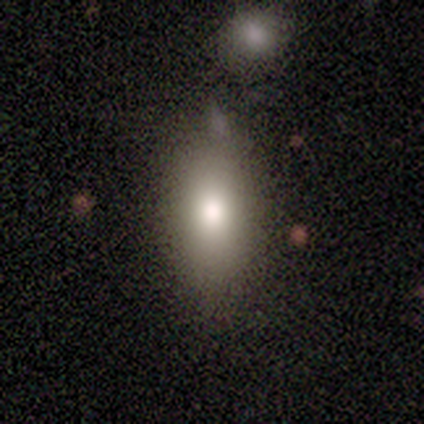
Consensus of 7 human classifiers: Volunteers were most divided on "merging": none: 71%, minor disturbance: 14%, major disturbance: 14%, merger: 0%. More confident: smooth or featured — smooth (100%); how rounded — in between (86%).